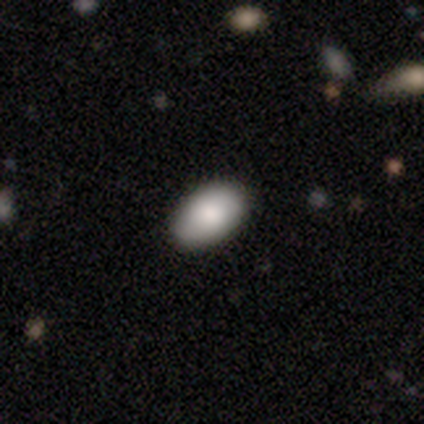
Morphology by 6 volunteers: A smooth galaxy with no disk features (67%) that is in between round and cigar-shaped (100%). Merging: none (100%).